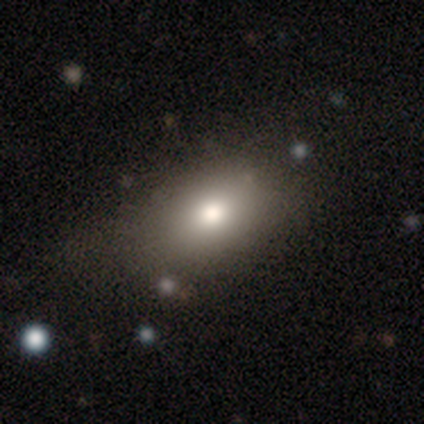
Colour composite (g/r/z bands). It shows a smooth galaxy with no disk features (80%) that is in between round and cigar-shaped (75%). Merging: major disturbance (50%).